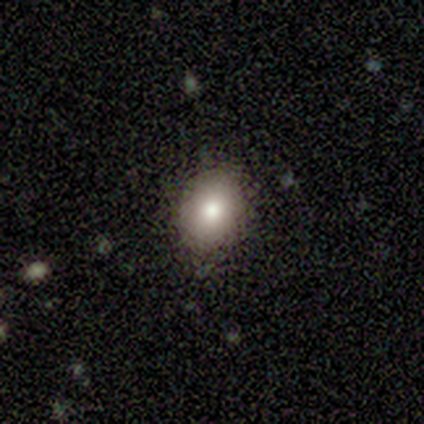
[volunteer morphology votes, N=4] Overall: smooth (75%). How rounded: round (33%, tied with in between and cigar-shaped). Merging: none (100%).